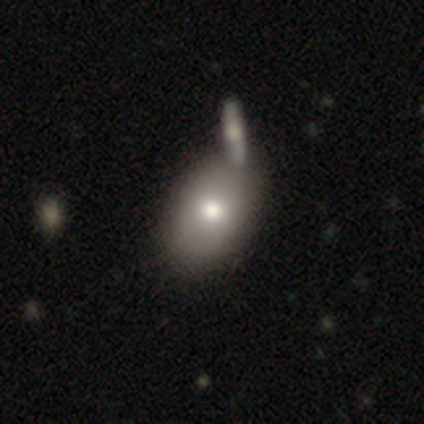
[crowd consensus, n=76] smooth_or_featured: smooth (p=0.74) [alt: featured or disk p=0.22]
how_rounded: in between (p=0.79) [alt: round p=0.20]
merging: merger (p=0.34) [alt: none p=0.32]